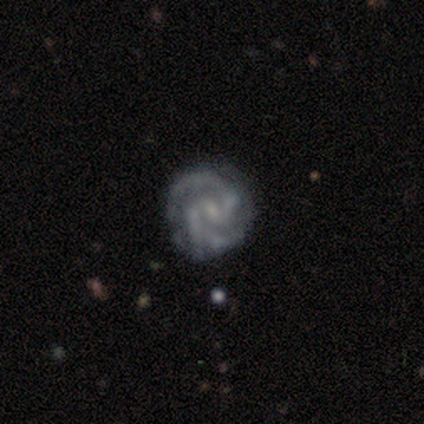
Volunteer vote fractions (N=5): This appears to be a featured or disk galaxy (100%) with a weak bar (75%), 2 (75%) tight (75%) spiral arms (100%) and a small central bulge (100%). Merging: none (40%, tied with minor disturbance).